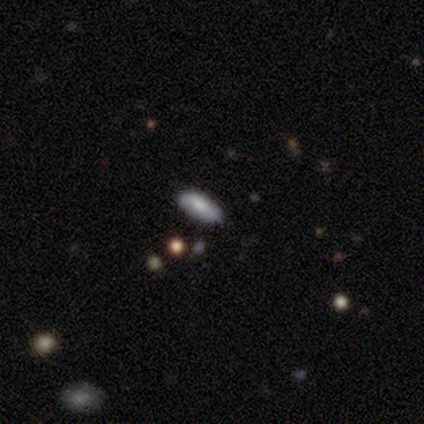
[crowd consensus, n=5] smooth_or_featured: smooth (p=1.00)
how_rounded: in between (p=1.00)
merging: none (p=0.80) [alt: minor disturbance p=0.20]